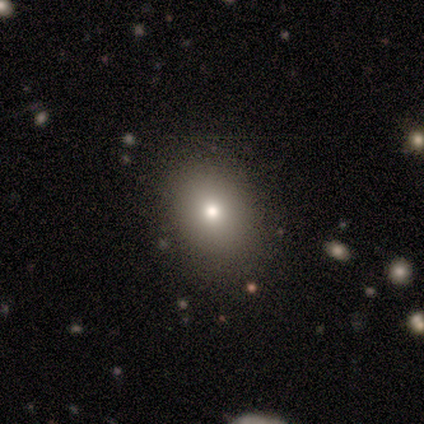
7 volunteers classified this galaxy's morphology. Smooth or featured? smooth (57%)
How rounded? round (50%, tied with in between)
Merging? none (100%)